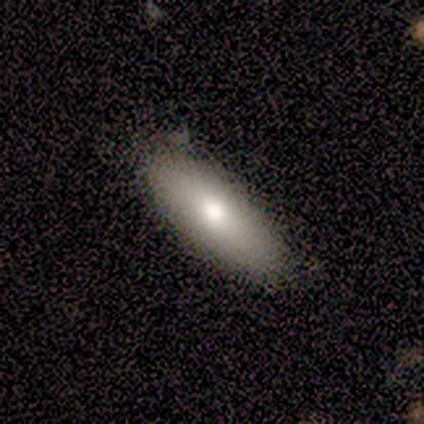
Smooth or featured? 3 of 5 (60%) said smooth. How rounded? 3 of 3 (100%) said in between. Merging? 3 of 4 (75%) said none.